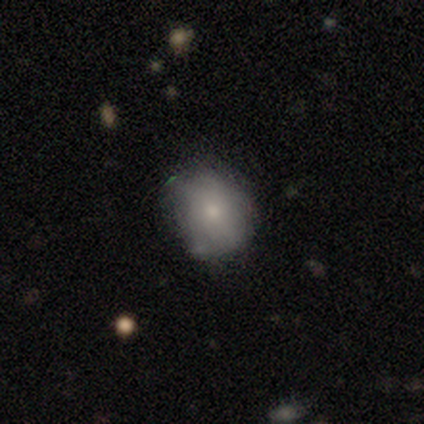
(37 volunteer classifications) smooth_or_featured: smooth (p=0.76) [alt: featured or disk p=0.22]
how_rounded: in between (p=0.61) [alt: round p=0.39]
merging: minor disturbance (p=0.56) [alt: none p=0.39]